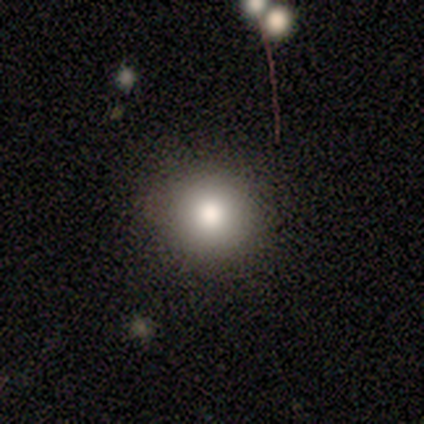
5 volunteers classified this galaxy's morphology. This appears to be a smooth galaxy with no disk features (100%) that is round (100%). Merging: none (100%).